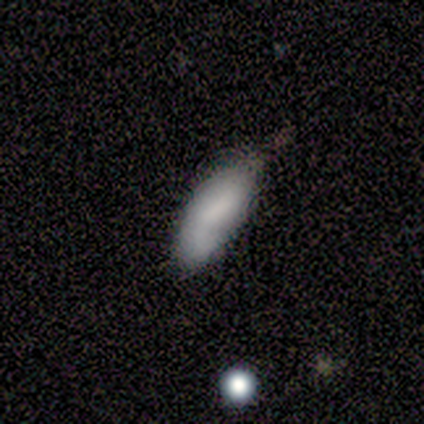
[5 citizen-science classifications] A smooth galaxy with no disk features (60%) that is in between round and cigar-shaped (100%).

Vote fractions:
- Smooth or featured? smooth: 60% / featured or disk: 40% / star or artifact: 0%
- How rounded? in between: 100% / round: 0% / cigar-shaped: 0%
- Merging? none: 80% / major disturbance: 20% / minor disturbance: 0% / merger: 0%